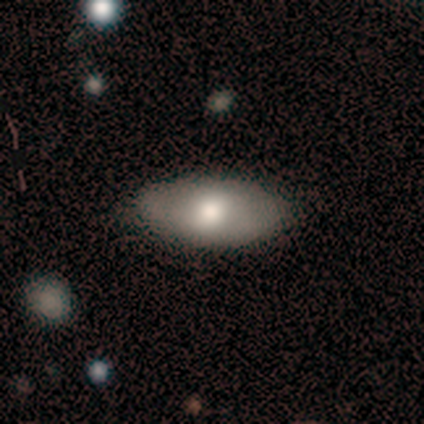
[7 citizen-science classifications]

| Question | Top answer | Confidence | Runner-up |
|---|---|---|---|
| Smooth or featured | smooth | 71% | featured or disk (14%) |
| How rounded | in between | 100% | — |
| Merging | none | 100% | — |